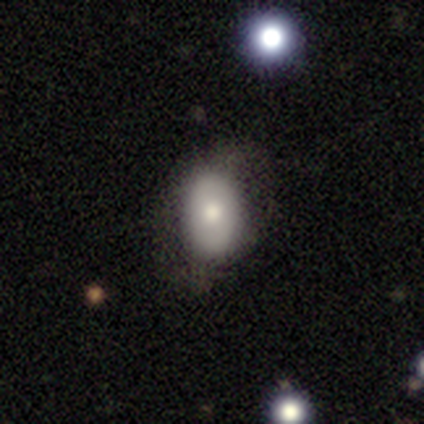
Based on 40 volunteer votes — Smooth or featured? 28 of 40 (70%) said smooth. How rounded? 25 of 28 (89%) said in between. Merging? 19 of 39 (49%) said none.